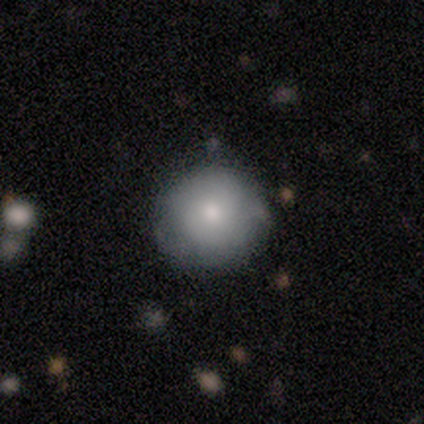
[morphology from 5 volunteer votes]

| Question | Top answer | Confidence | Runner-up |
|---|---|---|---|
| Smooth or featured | smooth | 40% | tied: featured or disk (40%) |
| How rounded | round | 100% | — |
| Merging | none | 100% | — |